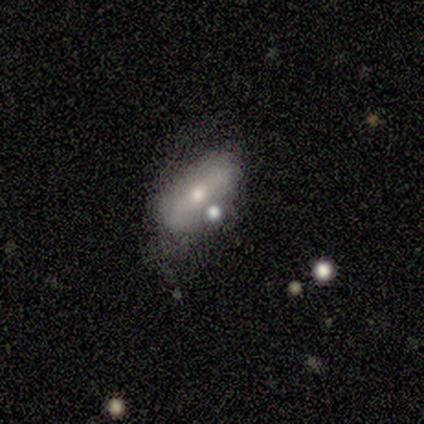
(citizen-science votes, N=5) A smooth galaxy with no disk features (60%) that is in between round and cigar-shaped (67%). Merging: none (60%).